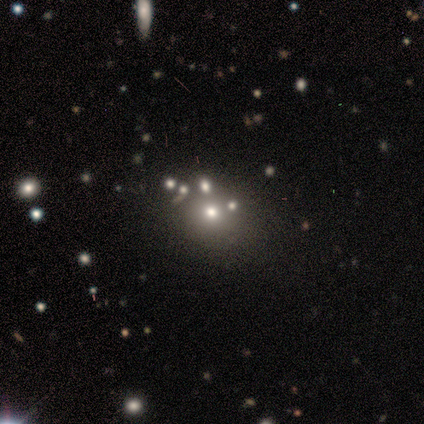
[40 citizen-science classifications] smooth_or_featured: smooth (p=0.42) [alt: star or artifact p=0.40]
how_rounded: round (p=0.88) [alt: in between p=0.12]
merging: none (p=0.71) [alt: merger p=0.21]